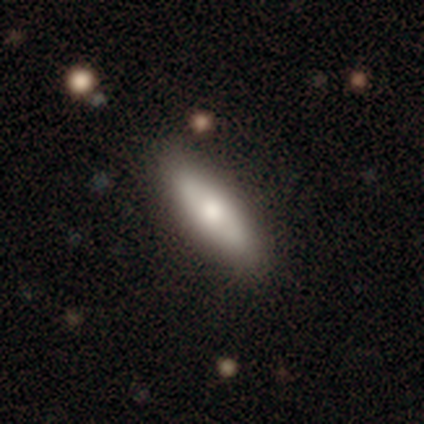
A smooth galaxy with no disk features (76%) that is in between round and cigar-shaped (51%). Merging: none (81%).